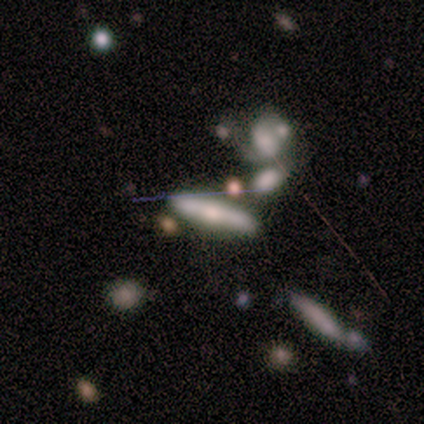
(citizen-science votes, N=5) A smooth galaxy with no disk features (60%) that is cigar-shaped (67%). Merging: none (80%).